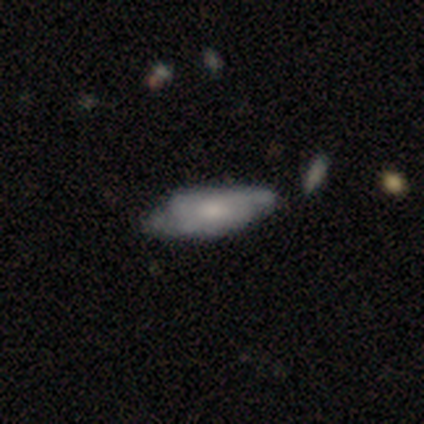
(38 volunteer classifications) Smooth or featured? 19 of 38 (50%) said featured or disk. Edge-on disk? 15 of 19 (79%) said no. Bar? 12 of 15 (80%) said no. Spiral arms? 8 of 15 (53%) said yes. Spiral winding? 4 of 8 (50%) said tight. Spiral arm count? 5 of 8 (62%) said 2. Bulge size? 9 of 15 (60%) said small. Merging? 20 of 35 (57%) said none.